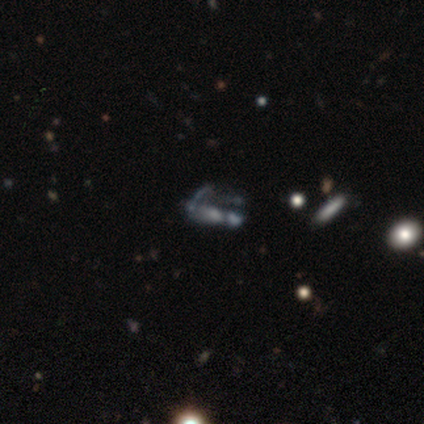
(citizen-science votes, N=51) This is likely a featured or disk galaxy (69%). It is clearly not viewed edge-on (89%). Bar: clearly no (94%). Spiral arm pattern: clearly no (87%). Central bulge: marginally none (39%). Merging: marginally major disturbance (36%).